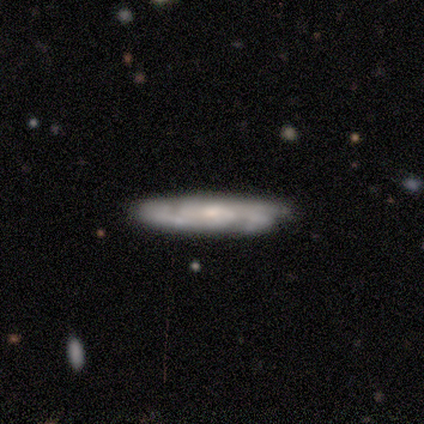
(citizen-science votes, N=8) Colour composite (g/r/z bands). It shows a featured or disk galaxy (100%) with no bar (83%), 2 (33%, tied with 3 and can't tell) tight (67%) spiral arms (100%) and a moderate central bulge (50%). Merging: none (88%).